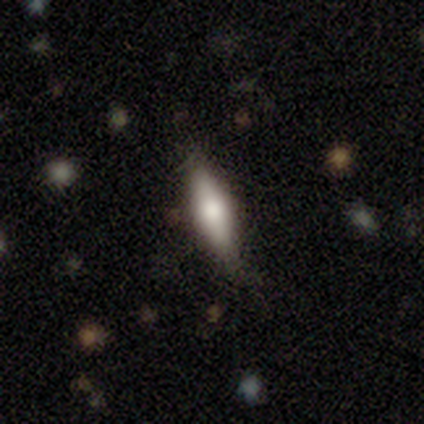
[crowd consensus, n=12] Morphology: type=smooth (75%); roundness=cigar-shaped (78%); merging=none (82%).